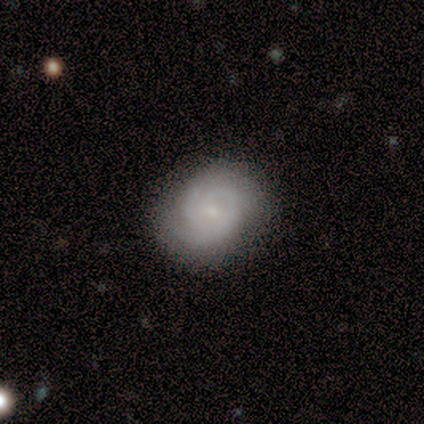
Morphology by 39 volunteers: A featured or disk galaxy (87%) with no bar (76%), 2 (59%) tight (68%) spiral arms (100%) and a small central bulge (76%). Merging: none (64%).